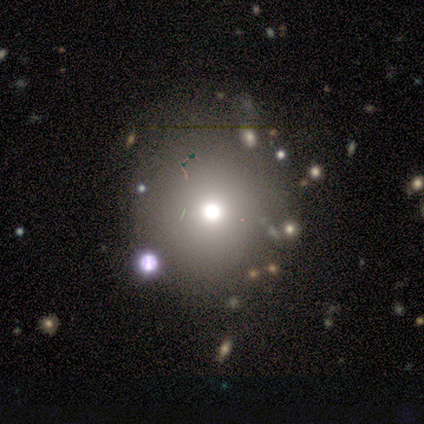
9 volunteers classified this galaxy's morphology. type=smooth (56%); roundness=round (80%); merging=none (60%).